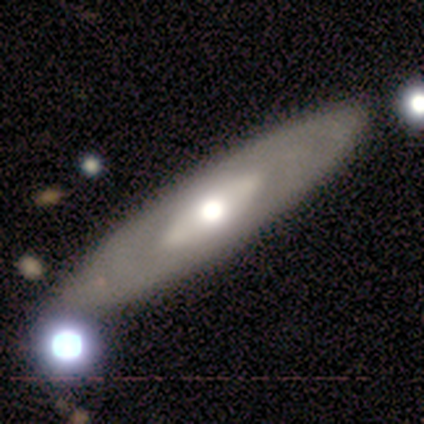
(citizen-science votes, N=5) Q: Smooth or featured?
A: featured or disk (80%); runner-up: smooth (20%)
Q: Edge-on disk?
A: yes (50%); tied with: no (50%)
Q: Edge-on bulge?
A: rounded (100%)
Q: Merging?
A: none (80%); runner-up: minor disturbance (20%)